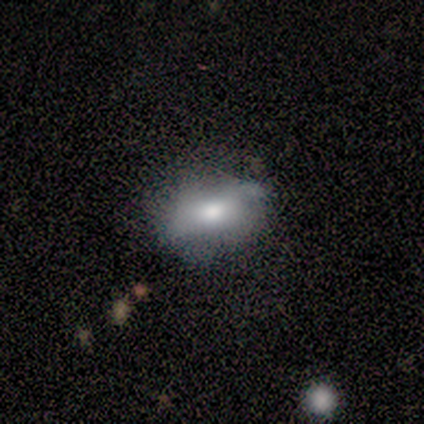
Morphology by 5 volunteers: Smooth or featured? smooth (80%)
How rounded? in between (75%)
Merging? none (80%)